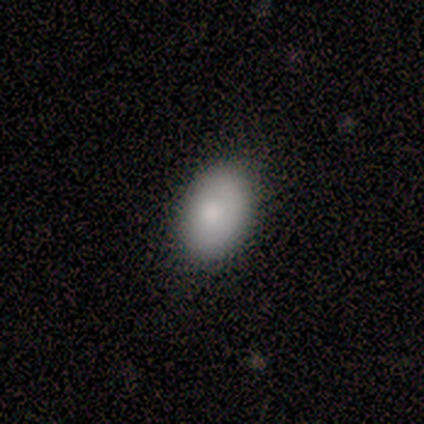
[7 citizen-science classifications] Overall: smooth (71%). How rounded: in between (100%). Merging: none (67%).